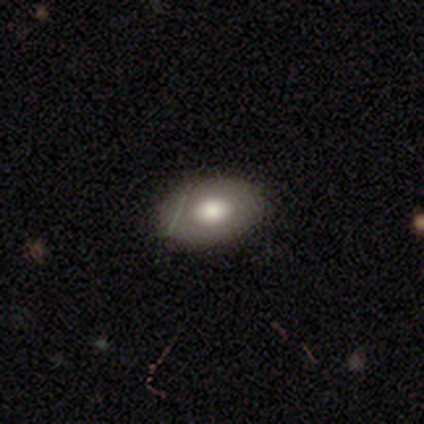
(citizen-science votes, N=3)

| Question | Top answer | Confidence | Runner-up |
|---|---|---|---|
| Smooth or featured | smooth | 33% | tied: featured or disk (33%), star or artifact (33%) |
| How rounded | in between | 100% | — |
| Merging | none | 100% | — |